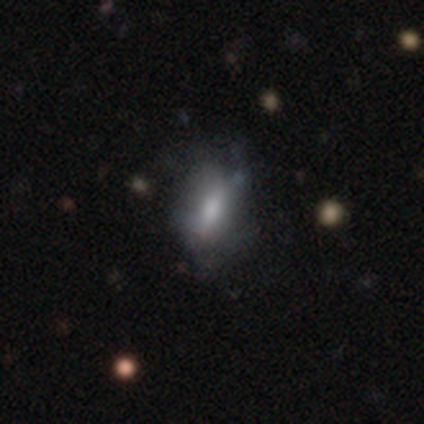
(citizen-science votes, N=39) smooth_or_featured: smooth (p=0.69) [alt: featured or disk p=0.23]
how_rounded: in between (p=0.78) [alt: round p=0.15]
merging: none (p=0.44) [alt: minor disturbance p=0.31]